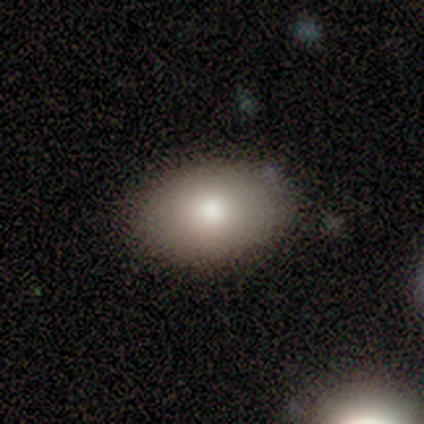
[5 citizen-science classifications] This appears to be a smooth galaxy with no disk features (80%) that is in between round and cigar-shaped (75%). Merging: none (100%).